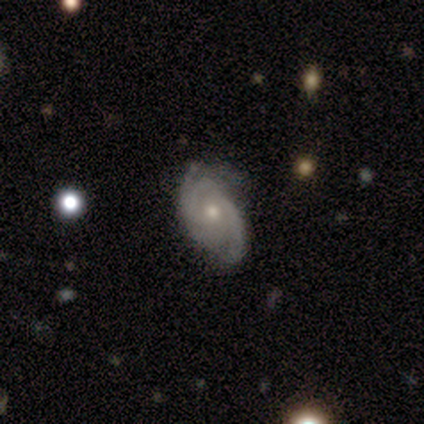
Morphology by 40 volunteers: Volunteers were most divided on "bulge size": moderate: 50%, small: 44%, large: 6%, dominant: 0%, none: 0%. Remaining: edge-on disk — no (94%); spiral arms — yes (94%); bar — no (88%); smooth or featured — featured or disk (85%); merging — none (68%); spiral winding — medium (50%); spiral arm count — 2 (47%).